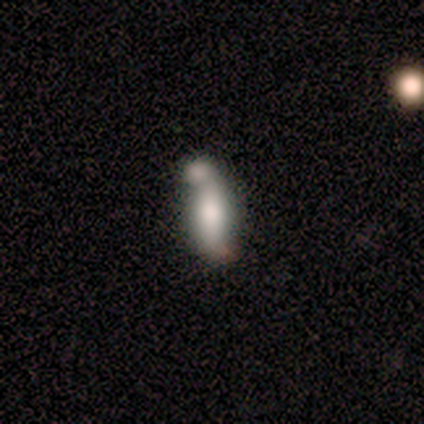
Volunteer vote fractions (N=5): Smooth or featured? 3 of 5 (60%) said featured or disk. Edge-on disk? 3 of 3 (100%) said no. Bar? 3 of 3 (100%) said no. Spiral arms? 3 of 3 (100%) said no. Bulge size? 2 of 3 (67%) said moderate. Merging? 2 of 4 (50%) said merger.